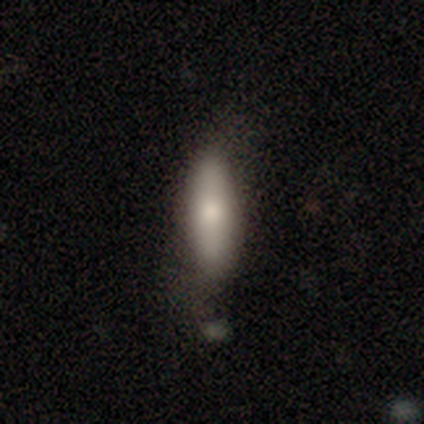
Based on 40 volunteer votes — Morphology: type=smooth (78%); roundness=in between (52%); merging=none (63%).